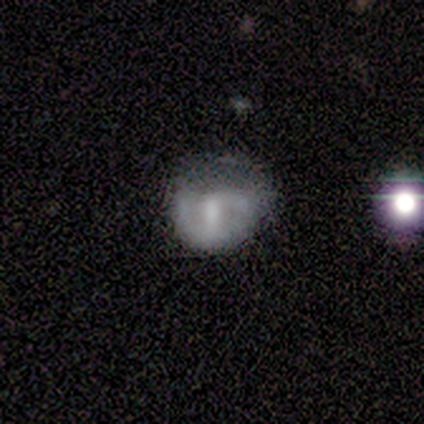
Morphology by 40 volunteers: type=smooth (48%, tied with featured or disk); roundness=round (74%); merging=minor disturbance (39%).